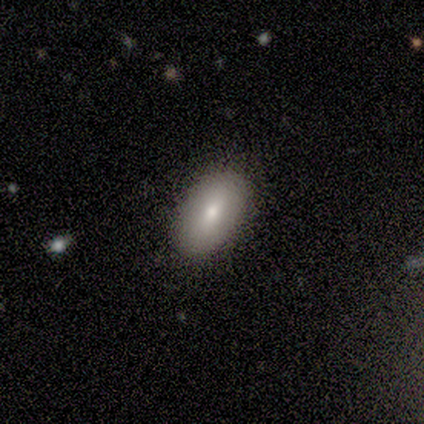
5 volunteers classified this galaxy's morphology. Overall: smooth (60%; featured or disk 40%). How rounded: in between (67%; round 33%). Merging: none (100%).